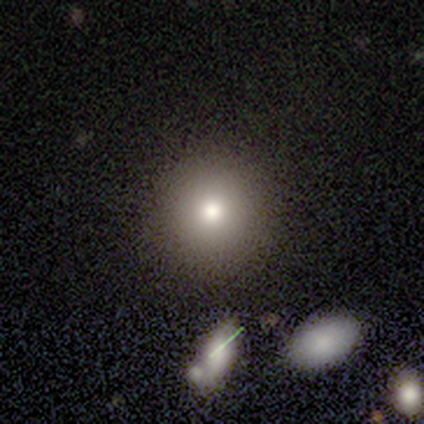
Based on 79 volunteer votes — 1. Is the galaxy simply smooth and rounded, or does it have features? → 81% smooth, 10% star or artifact, 9% featured or disk.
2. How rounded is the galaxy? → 94% round, 6% in between, 0% cigar-shaped.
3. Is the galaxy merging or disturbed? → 49% none, 3% minor disturbance, 1% major disturbance, 1% merger.